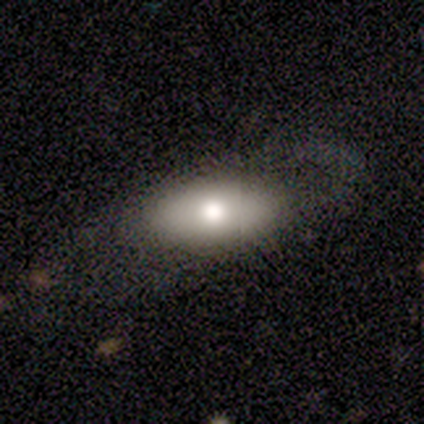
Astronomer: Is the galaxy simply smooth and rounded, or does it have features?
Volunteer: smooth — 80%.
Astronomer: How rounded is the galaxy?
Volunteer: in between — 100%.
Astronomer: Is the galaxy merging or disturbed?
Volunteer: none — 80%.